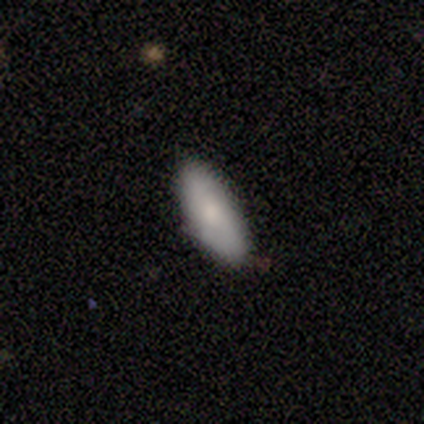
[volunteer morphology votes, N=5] smooth 80%, featured or disk 20%, star or artifact 0%. Down the decision tree: how rounded — cigar-shaped (75%); merging — none (100%).